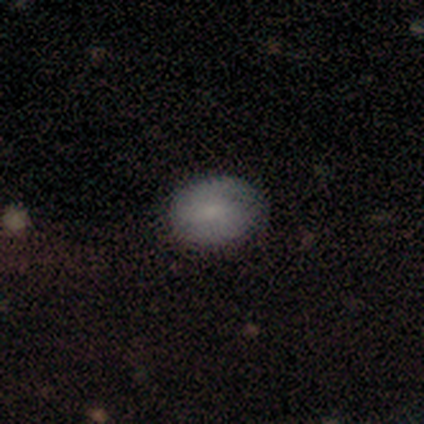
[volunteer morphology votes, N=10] Smooth or featured: smooth — 90% (featured or disk — 10%)
How rounded: in between — 78% (round — 22%)
Merging: none — 80% (minor disturbance — 20%)